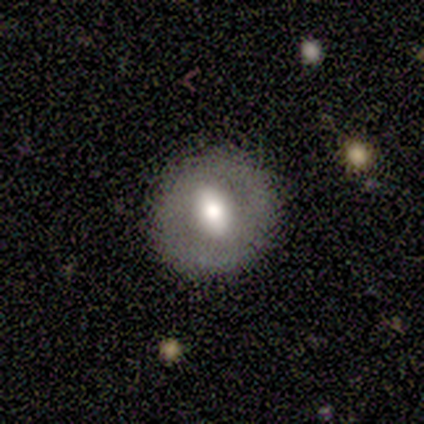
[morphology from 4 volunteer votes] Overall: featured or disk (75%). Edge-on disk: no (100%). Bar: strong (67%; weak 33%). Spiral arms: no (67%; yes 33%). Bulge size: moderate (100%). Merging: none (100%).